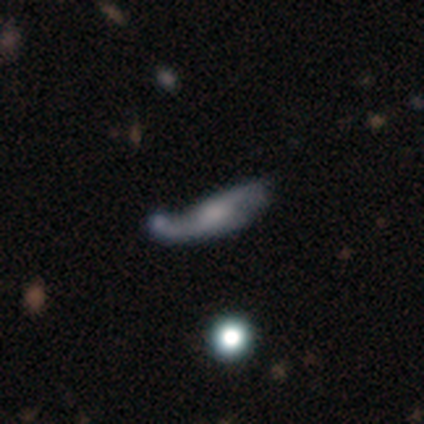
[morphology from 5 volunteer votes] Smooth or featured? 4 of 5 (80%) said smooth. How rounded? 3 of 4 (75%) said cigar-shaped. Merging? 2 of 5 (40%) said major disturbance.